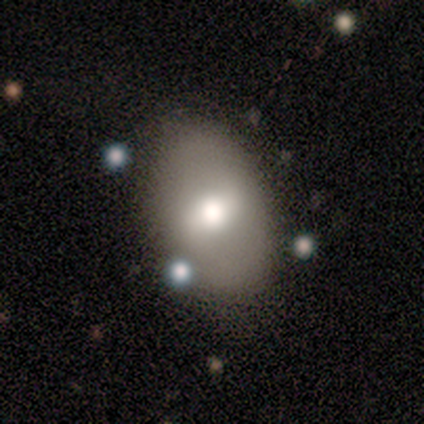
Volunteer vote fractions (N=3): Smooth or featured? 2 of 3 (67%) said featured or disk. Edge-on disk? 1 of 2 (50%, tied with no) said yes. Edge-on bulge? 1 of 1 (100%) said rounded. Merging? 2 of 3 (67%) said none.